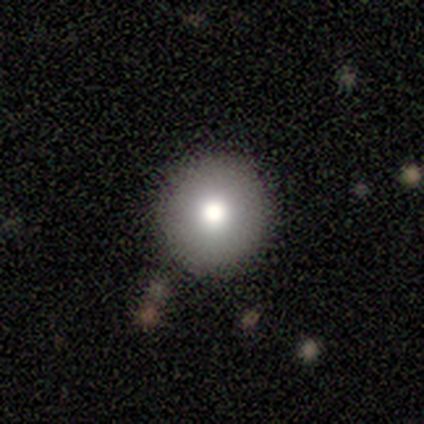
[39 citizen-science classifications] This is likely a smooth galaxy (69%). How rounded: clearly round (93%). Merging: clearly none (97%).